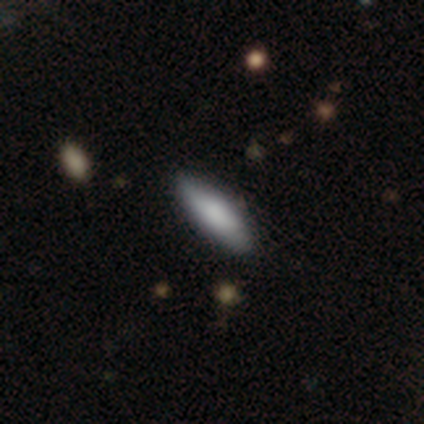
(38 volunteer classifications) Smooth or featured? 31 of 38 (82%) said smooth. How rounded? 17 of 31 (55%) said in between. Merging? 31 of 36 (86%) said none.